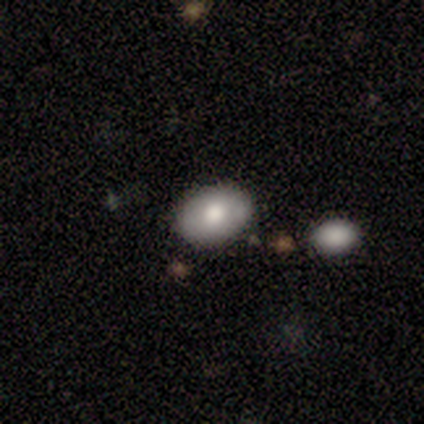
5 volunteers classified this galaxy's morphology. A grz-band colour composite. It shows a smooth galaxy with no disk features (80%) that is in between round and cigar-shaped (100%). Merging: none (80%).